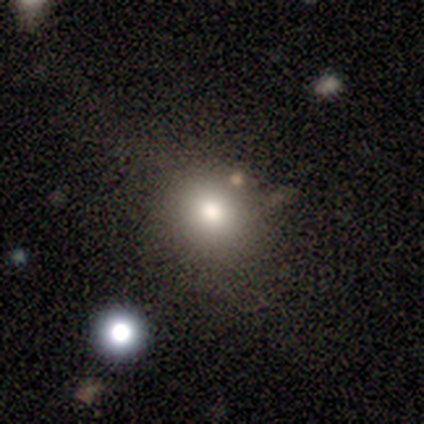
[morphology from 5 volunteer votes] Q: Smooth or featured?
A: smooth (80%); runner-up: star or artifact (20%)
Q: How rounded?
A: round (50%); tied with: in between (50%)
Q: Merging?
A: none (50%); tied with: minor disturbance (50%)